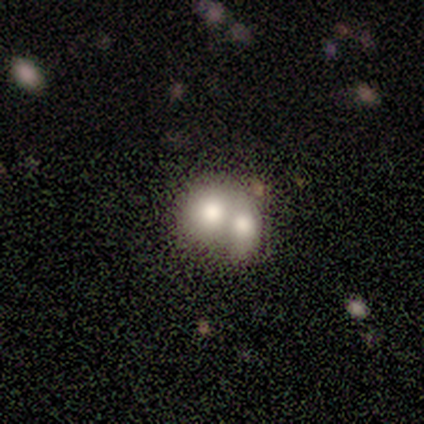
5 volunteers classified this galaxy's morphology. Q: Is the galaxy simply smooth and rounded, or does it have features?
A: featured or disk — 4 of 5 (80%).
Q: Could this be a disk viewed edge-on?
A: no — 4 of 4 (100%).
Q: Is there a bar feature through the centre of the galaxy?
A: no — 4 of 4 (100%).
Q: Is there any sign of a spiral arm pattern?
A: no — 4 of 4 (100%).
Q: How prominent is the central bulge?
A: large — 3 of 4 (75%).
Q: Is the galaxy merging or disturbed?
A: merger — 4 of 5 (80%).